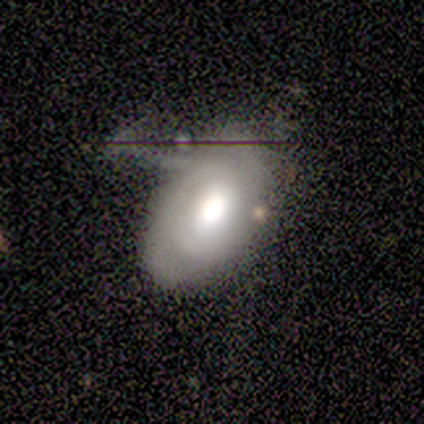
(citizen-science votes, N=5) Q: Smooth or featured?
A: smooth (60%); runner-up: featured or disk (20%)
Q: How rounded?
A: in between (100%)
Q: Merging?
A: none (50%); runner-up: minor disturbance (25%)